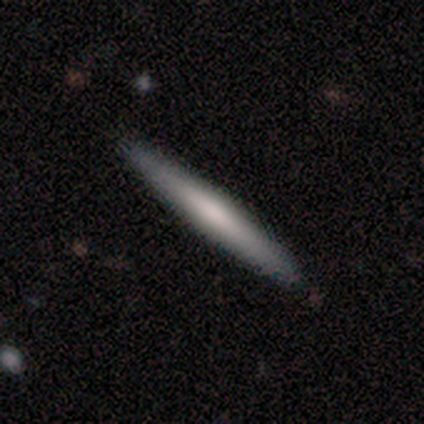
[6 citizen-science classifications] Smooth or featured? smooth (50%, tied with featured or disk)
How rounded? cigar-shaped (100%)
Merging? none (100%)